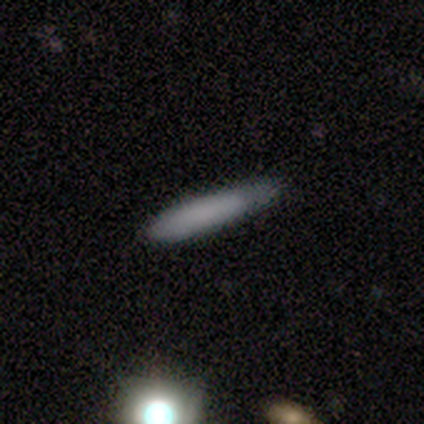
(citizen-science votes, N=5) Smooth or featured? 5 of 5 (100%) said smooth. How rounded? 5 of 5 (100%) said cigar-shaped. Merging? 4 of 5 (80%) said none.